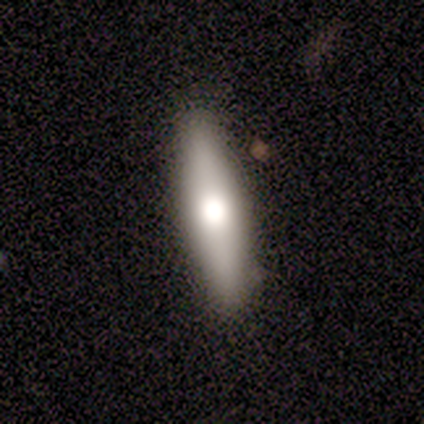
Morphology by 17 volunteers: Smooth or featured? 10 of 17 (59%) said featured or disk. Edge-on disk? 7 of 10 (70%) said yes. Edge-on bulge? 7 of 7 (100%) said rounded. Merging? 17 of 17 (100%) said none.